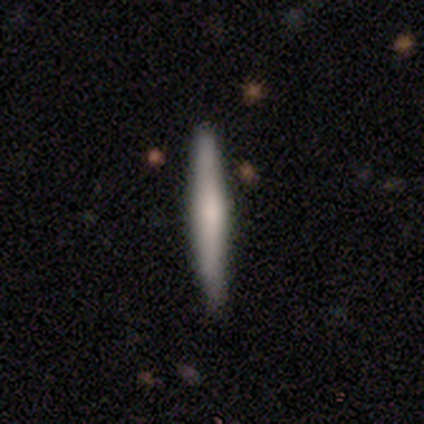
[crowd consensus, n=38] A smooth galaxy with no disk features (53%) that is cigar-shaped (95%). Merging: none (83%).